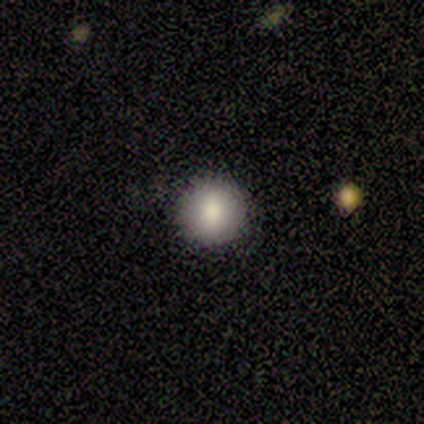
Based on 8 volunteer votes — This is clearly a smooth galaxy (100%). How rounded: clearly round (100%). Merging: clearly none (88%).